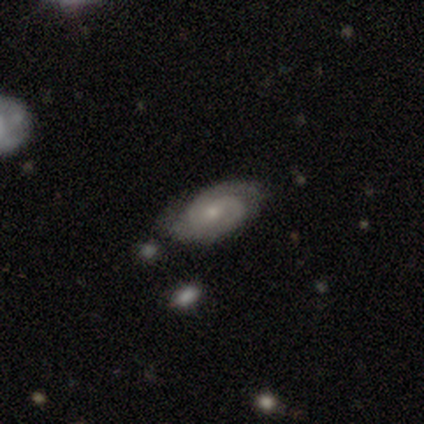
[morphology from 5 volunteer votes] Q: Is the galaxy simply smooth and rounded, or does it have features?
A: featured or disk — 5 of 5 (100%).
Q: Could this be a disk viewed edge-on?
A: no — 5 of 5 (100%).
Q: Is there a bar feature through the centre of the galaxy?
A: no — 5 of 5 (100%).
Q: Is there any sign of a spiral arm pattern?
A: yes — 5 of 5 (100%).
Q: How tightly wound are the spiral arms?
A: tight — 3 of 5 (60%).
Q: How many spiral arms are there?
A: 1 — 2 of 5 (40%, tied with 2).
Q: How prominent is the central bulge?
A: small — 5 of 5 (100%).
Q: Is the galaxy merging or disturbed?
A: none — 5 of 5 (100%).